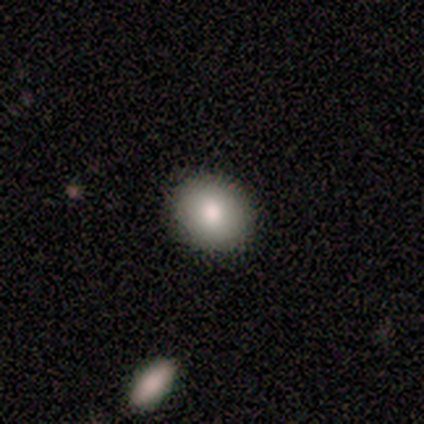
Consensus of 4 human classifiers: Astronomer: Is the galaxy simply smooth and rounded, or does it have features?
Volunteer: smooth — 100%.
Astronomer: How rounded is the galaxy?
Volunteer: round — 100%.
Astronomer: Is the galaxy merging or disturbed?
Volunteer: none — 100%.